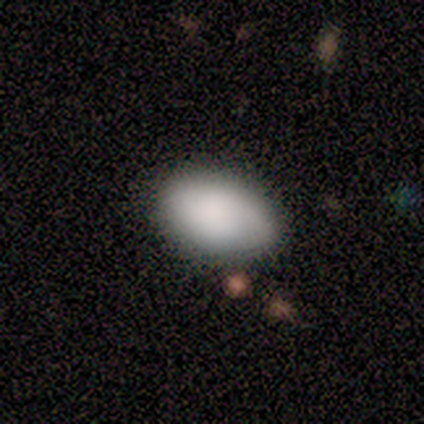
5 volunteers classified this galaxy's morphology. Smooth or featured? 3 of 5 (60%) said smooth. How rounded? 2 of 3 (67%) said round. Merging? 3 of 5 (60%) said none.